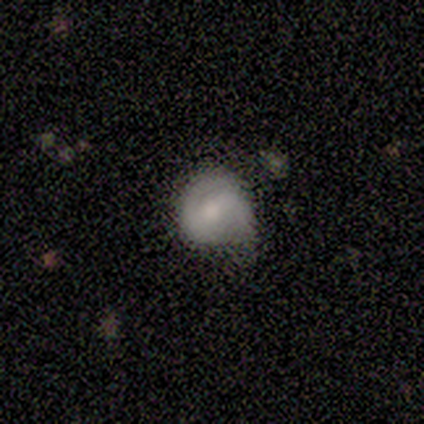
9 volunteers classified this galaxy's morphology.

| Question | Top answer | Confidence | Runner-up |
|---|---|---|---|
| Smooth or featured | featured or disk | 56% | smooth (44%) |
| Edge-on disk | no | 100% | — |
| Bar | weak | 60% | strong (20%) |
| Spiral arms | yes | 100% | — |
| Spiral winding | tight | 40% | tied: medium (40%) |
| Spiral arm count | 2 | 60% | 1 (40%) |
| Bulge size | small | 40% | tied: none (40%) |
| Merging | minor disturbance | 44% | none (33%) |